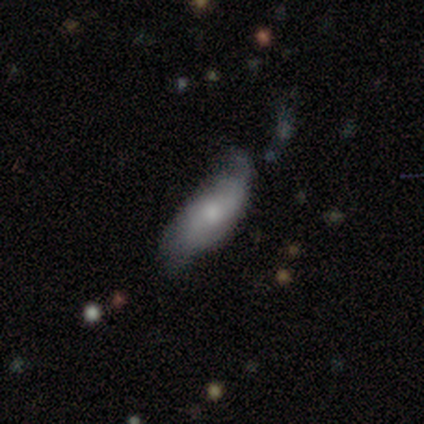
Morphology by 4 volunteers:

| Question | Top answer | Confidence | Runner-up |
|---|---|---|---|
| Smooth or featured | smooth | 50% | featured or disk (25%) |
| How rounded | in between | 100% | — |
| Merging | minor disturbance | 67% | merger (33%) |